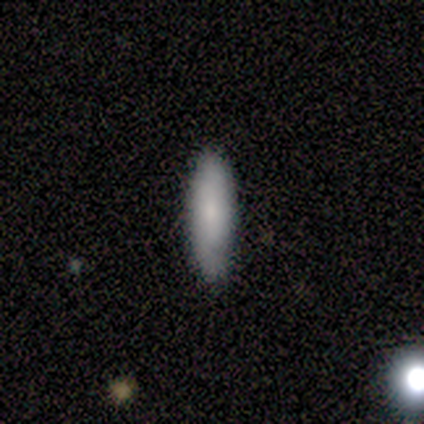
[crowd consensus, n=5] Smooth or featured? smooth (80%)
How rounded? cigar-shaped (75%)
Merging? none (80%)